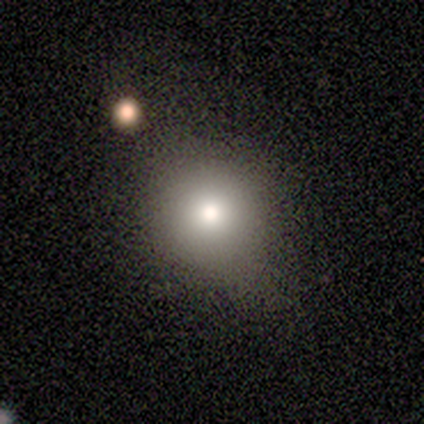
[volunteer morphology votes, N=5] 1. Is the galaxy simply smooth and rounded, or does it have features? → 80% smooth, 20% featured or disk, 0% star or artifact.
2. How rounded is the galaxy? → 75% round, 25% in between, 0% cigar-shaped.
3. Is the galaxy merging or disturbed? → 80% none, 20% minor disturbance, 0% major disturbance, 0% merger.